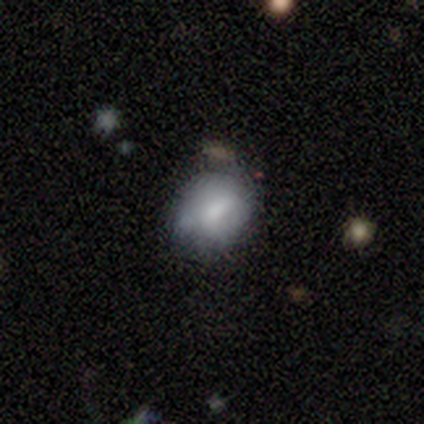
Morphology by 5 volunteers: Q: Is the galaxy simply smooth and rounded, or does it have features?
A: smooth — 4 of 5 (80%).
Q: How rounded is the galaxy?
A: in between — 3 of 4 (75%).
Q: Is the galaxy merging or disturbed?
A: none — 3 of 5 (60%).